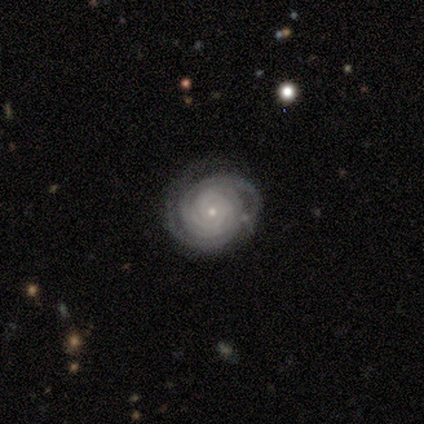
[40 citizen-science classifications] Morphology: type=featured or disk (90%); edge-on=no (100%); bar=no (83%); spiral arms=yes (100%); winding=tight (97%); arm count=can't tell (31%); bulge=small (89%); merging=none (67%).